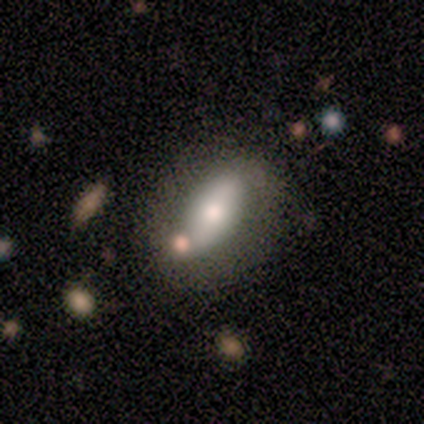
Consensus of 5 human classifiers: Q: Smooth or featured?
A: smooth (100%)
Q: How rounded?
A: in between (80%); runner-up: cigar-shaped (20%)
Q: Merging?
A: none (40%); tied with: minor disturbance (40%)